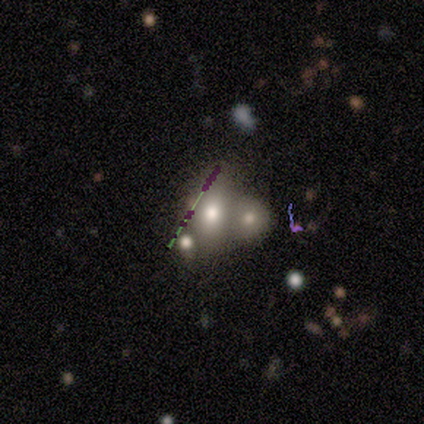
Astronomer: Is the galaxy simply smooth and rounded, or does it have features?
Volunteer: star or artifact — 60%.